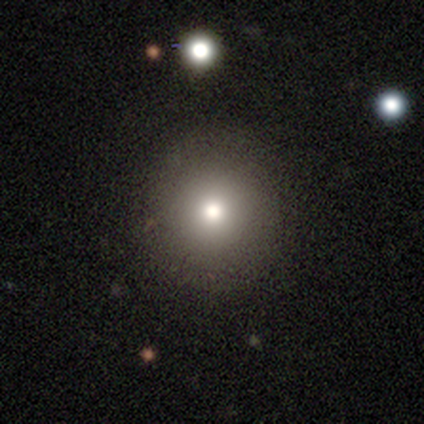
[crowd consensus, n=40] Smooth or featured?
  - smooth: 72% *
  - featured or disk: 20%
  - star or artifact: 8%
How rounded?
  - round: 100% *
  - in between: 0%
  - cigar-shaped: 0%
Merging?
  - none: 62% *
  - minor disturbance: 5%
  - major disturbance: 0%
  - merger: 0%